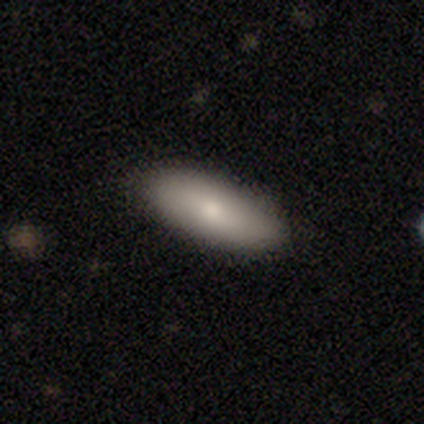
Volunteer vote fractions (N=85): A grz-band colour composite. It shows a smooth galaxy with no disk features (78%) that is in between round and cigar-shaped (73%). Merging: none (78%).